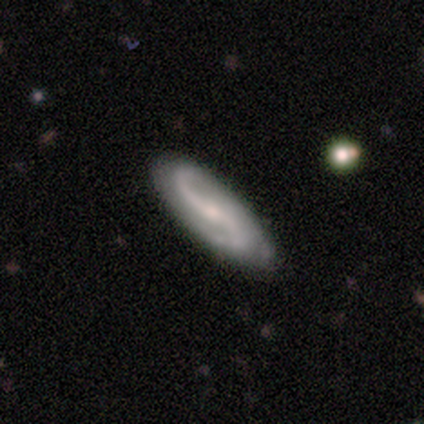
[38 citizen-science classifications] smooth-or-featured: featured or disk: 89% | smooth: 11% | star or artifact: 0%
  disk-edge-on: no: 100% | yes: 0%
    bar: weak: 35% | strong: 32% | no: 32%
    has-spiral-arms: yes: 94% | no: 6%
      spiral-winding: loose: 72% | medium: 19% | tight: 9%
      spiral-arm-count: 2: 81% | 1: 12% | can't tell: 6% | 3: 0% | 4: 0% | more than 4: 0%
    bulge-size: small: 47% | moderate: 44% | none: 6% | large: 3% | dominant: 0%
  merging: none: 53% | minor disturbance: 11% | merger: 3% | major disturbance: 0%